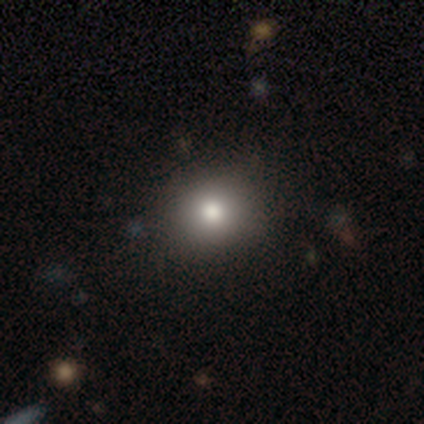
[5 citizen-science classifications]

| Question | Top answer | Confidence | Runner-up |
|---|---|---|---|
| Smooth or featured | smooth | 100% | — |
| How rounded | round | 60% | in between (40%) |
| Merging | none | 80% | minor disturbance (20%) |